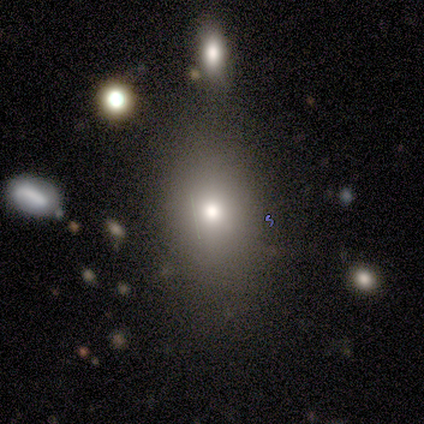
smooth_or_featured: smooth (p=0.60) [alt: featured or disk p=0.20]
how_rounded: in between (p=0.67) [alt: round p=0.33]
merging: none (p=0.75) [alt: minor disturbance p=0.25]